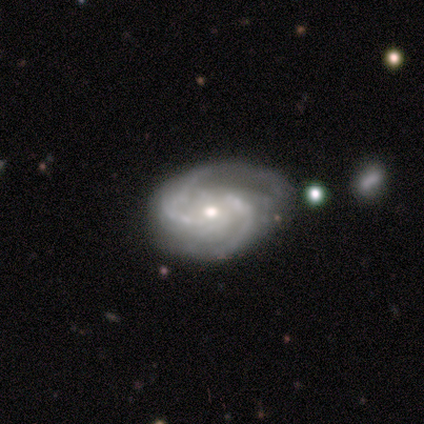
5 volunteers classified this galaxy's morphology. This is clearly a featured or disk galaxy (100%). It is clearly not viewed edge-on (100%). Bar: clearly no (80%). Spiral arm pattern: clearly yes (100%). Spiral arm count: clearly 2 (100%). Spiral winding: clearly medium (80%). Central bulge: clearly moderate (80%). Merging: marginally none (40%, tied with major disturbance).